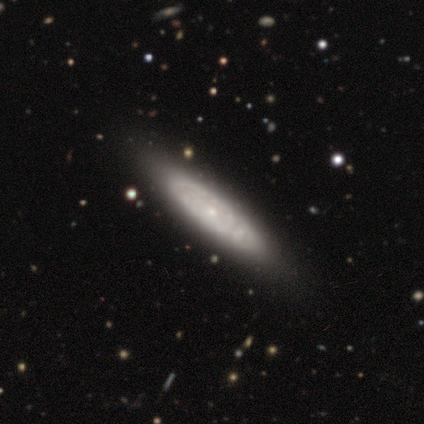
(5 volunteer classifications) A featured or disk galaxy (80%) with no bar (67%), no spiral arms (67%) and a small central bulge (100%). Merging: none (80%).